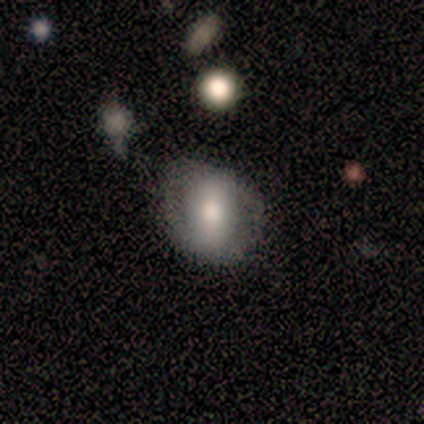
Q: Smooth or featured?
A: smooth (60%); runner-up: featured or disk (40%)
Q: How rounded?
A: in between (67%); runner-up: round (33%)
Q: Merging?
A: none (80%); runner-up: merger (20%)